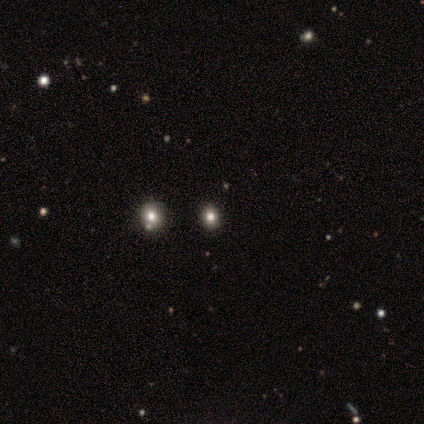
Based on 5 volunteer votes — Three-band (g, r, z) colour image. It shows a star or artifact, not a galaxy (60%).